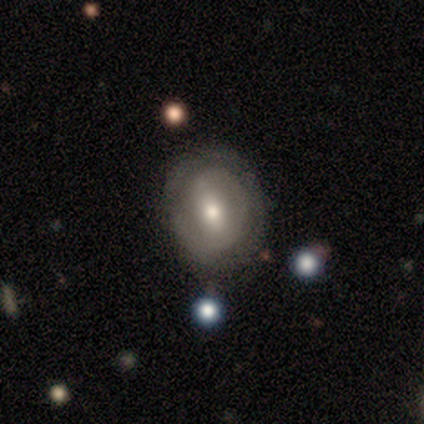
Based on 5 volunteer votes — smooth-or-featured: featured or disk: 60% | smooth: 40% | star or artifact: 0%
  disk-edge-on: no: 100% | yes: 0%
    bar: weak: 67% | strong: 33% | no: 0%
    has-spiral-arms: yes: 67% | no: 33%
      spiral-winding: tight: 100% | medium: 0% | loose: 0%
      spiral-arm-count: 2: 100% | 1: 0% | 3: 0% | 4: 0% | more than 4: 0% | can't tell: 0%
    bulge-size: moderate: 100% | dominant: 0% | large: 0% | small: 0% | none: 0%
  merging: none: 80% | minor disturbance: 20% | major disturbance: 0% | merger: 0%